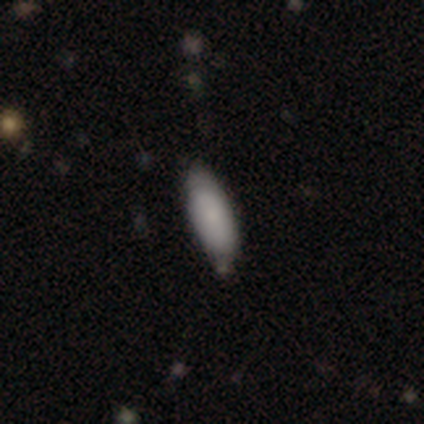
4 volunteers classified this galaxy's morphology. Overall: smooth (100%). How rounded: in between (50%, tied with cigar-shaped). Merging: none (50%; major disturbance 25%).